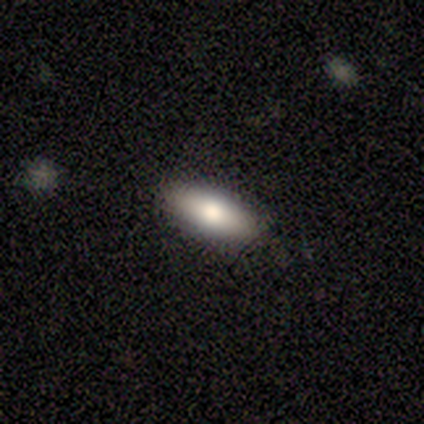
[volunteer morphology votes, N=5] Smooth or featured? smooth (100%)
How rounded? in between (80%)
Merging? none (100%)